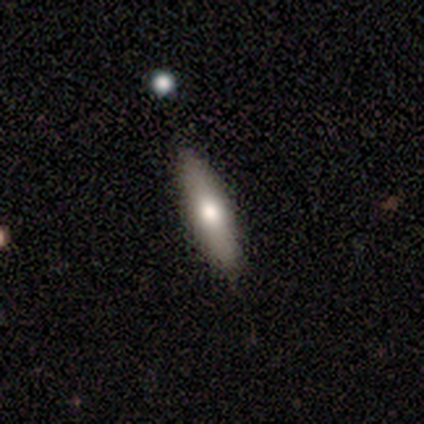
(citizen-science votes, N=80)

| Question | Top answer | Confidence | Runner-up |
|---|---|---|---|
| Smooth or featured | smooth | 70% | featured or disk (29%) |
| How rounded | cigar-shaped | 80% | in between (20%) |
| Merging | none | 42% | minor disturbance (6%) |